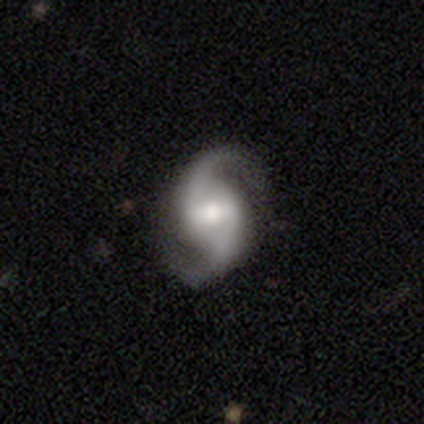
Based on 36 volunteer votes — featured or disk 94%, star or artifact 6%, smooth 0%. Down the decision tree: edge-on disk — no (100%); bar — weak (56%); spiral arms — yes (94%); spiral arm count — 2 (100%); spiral winding — loose (56%); bulge size — moderate (50%); merging — none (82%).